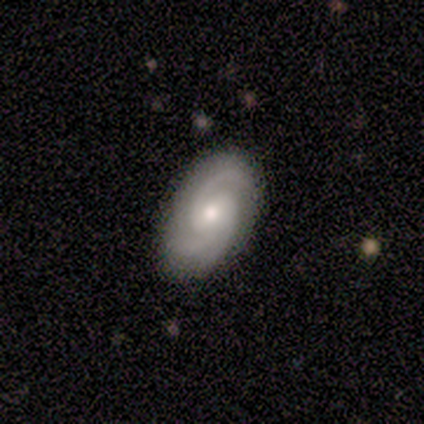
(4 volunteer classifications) Overall: featured or disk (50%; smooth 25%). Edge-on disk: no (100%). Bar: weak (50%, tied with no). Spiral arms: yes (100%). Spiral arm count: 2 (100%). Spiral winding: tight (100%). Bulge size: moderate (50%, tied with small). Merging: none (67%; minor disturbance 33%).